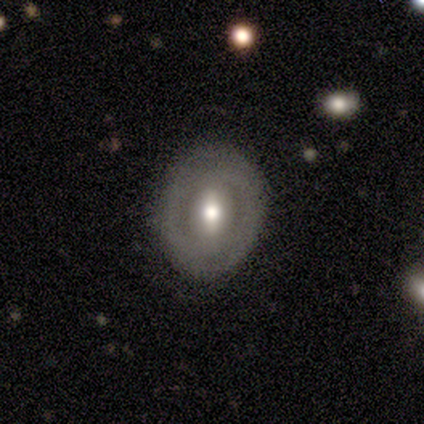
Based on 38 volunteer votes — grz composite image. It shows a smooth galaxy with no disk features (50%) that is round (47%, tied with in between). Merging: none (76%).